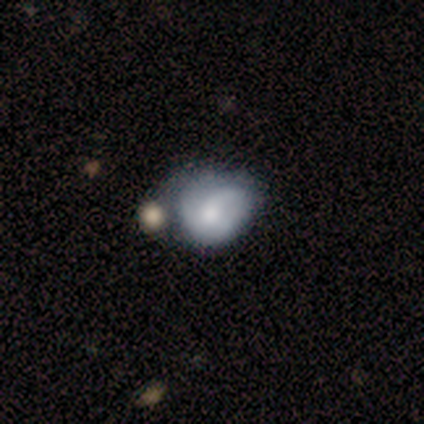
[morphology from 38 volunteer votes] Overall: featured or disk (61%; smooth 37%). Edge-on disk: no (96%). Bar: no (73%). Spiral arms: yes (77%). Spiral arm count: 1 (41%; 2 29%). Spiral winding: loose (41%; tight 29%). Bulge size: moderate (59%). Merging: minor disturbance (35%; none 19%).